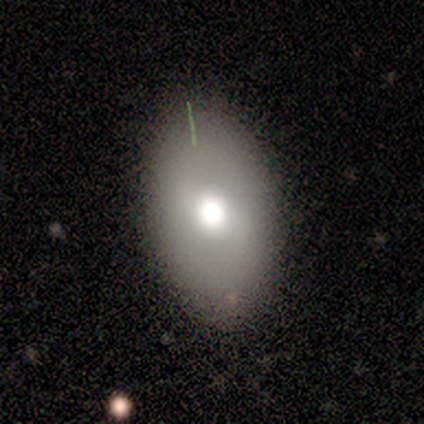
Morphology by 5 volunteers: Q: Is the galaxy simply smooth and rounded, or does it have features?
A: smooth — 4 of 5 (80%).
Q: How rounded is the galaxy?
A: in between — 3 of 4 (75%).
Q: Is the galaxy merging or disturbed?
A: none — 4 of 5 (80%).